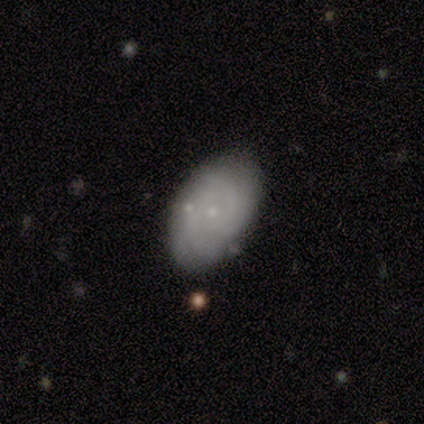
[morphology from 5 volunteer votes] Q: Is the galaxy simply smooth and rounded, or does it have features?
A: smooth — 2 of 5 (40%, tied with featured or disk).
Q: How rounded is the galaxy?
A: in between — 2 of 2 (100%).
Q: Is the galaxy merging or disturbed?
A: none — 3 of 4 (75%).